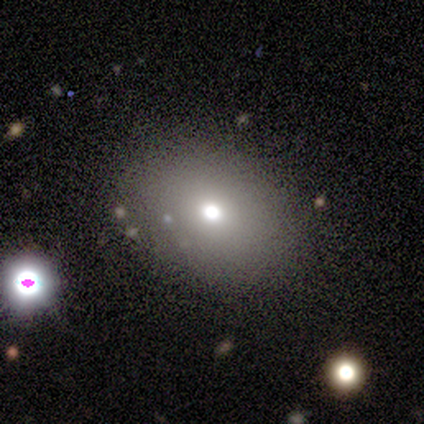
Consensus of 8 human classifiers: Morphology: type=smooth (88%); roundness=in between (71%); merging=none (86%).